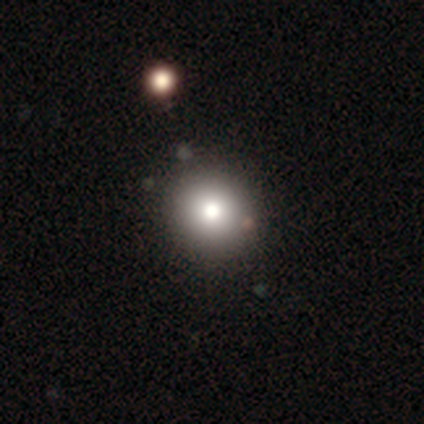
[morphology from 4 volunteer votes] This is possibly a smooth galaxy (50%). How rounded: clearly round (100%). Merging: likely none (67%).